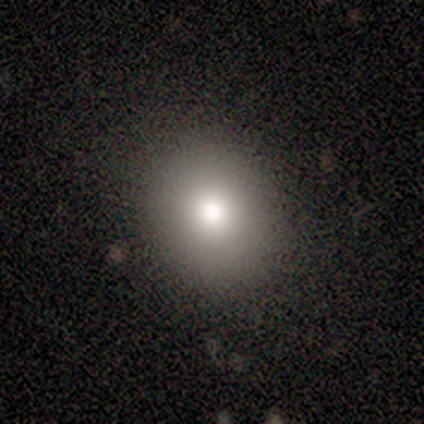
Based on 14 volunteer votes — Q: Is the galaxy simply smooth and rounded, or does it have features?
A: smooth — 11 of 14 (79%).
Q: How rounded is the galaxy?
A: round — 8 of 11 (73%).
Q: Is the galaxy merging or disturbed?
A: none — 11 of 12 (92%).